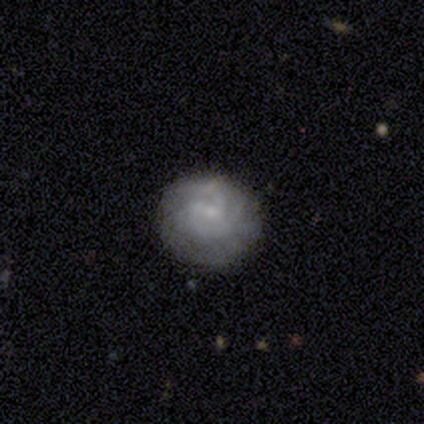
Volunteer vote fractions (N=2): Smooth or featured?
  - smooth: 100% *
  - featured or disk: 0%
  - star or artifact: 0%
How rounded?
  - round: 50% * (tied)
  - in between: 50% * (tied)
  - cigar-shaped: 0%
Merging?
  - none: 50% * (tied)
  - minor disturbance: 50% * (tied)
  - major disturbance: 0%
  - merger: 0%